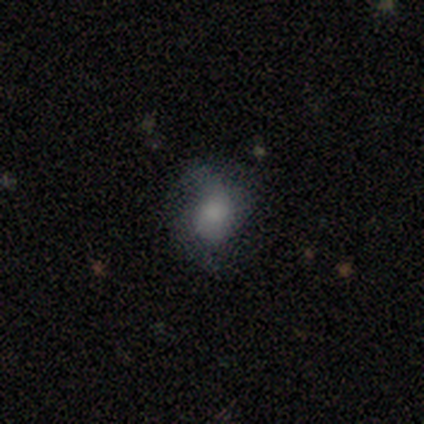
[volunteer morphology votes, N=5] Smooth or featured: smooth — 80% (featured or disk — 20%)
How rounded: round — 75% (in between — 25%)
Merging: none — 60% (minor disturbance — 40%)